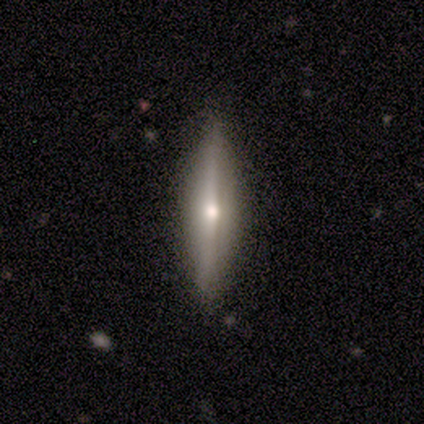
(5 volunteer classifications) This is clearly a featured or disk galaxy (80%). It is clearly viewed edge-on (100%). Edge-on bulge: clearly rounded (100%). Merging: marginally none (40%, tied with minor disturbance).